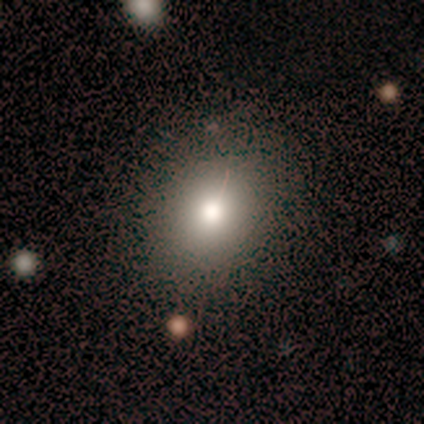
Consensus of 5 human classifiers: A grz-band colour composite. It shows a smooth galaxy with no disk features (100%) that is in between round and cigar-shaped (80%). Merging: none (100%).